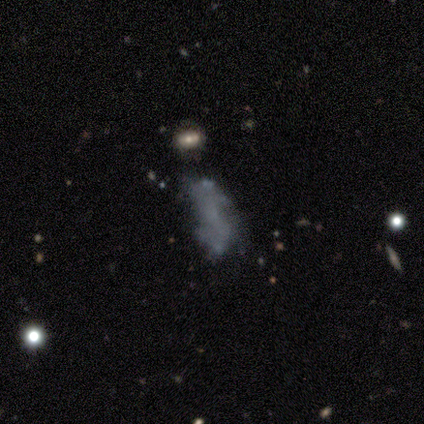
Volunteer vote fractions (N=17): Smooth or featured?
  - smooth: 41% * (tied)
  - featured or disk: 41% * (tied)
  - star or artifact: 18%
How rounded?
  - in between: 57% *
  - cigar-shaped: 43%
  - round: 0%
Merging?
  - none: 50% *
  - merger: 21%
  - minor disturbance: 14%
  - major disturbance: 14%